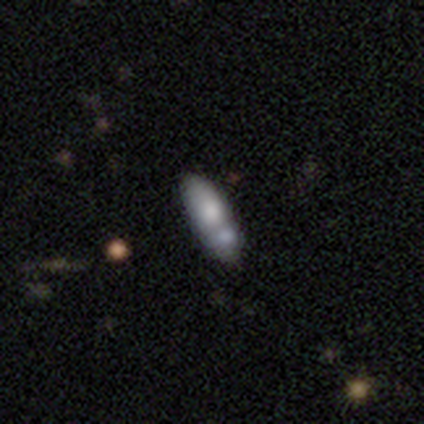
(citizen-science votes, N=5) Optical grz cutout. It shows a featured or disk galaxy (60%) with no bar (100%), no spiral arms (100%) and a moderate central bulge (67%). Merging: minor disturbance (40%, tied with merger).